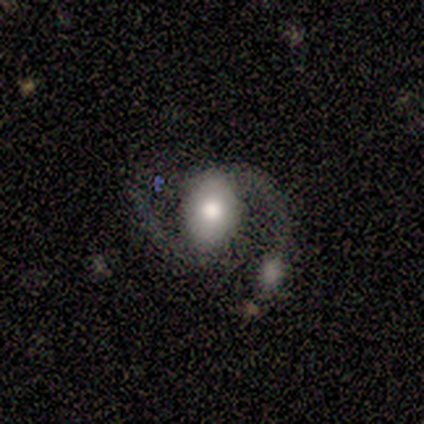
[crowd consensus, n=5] This appears to be a featured or disk galaxy (80%) with a weak bar (50%, tied with no), 2 (100%) medium (100%) spiral arms (100%) and a large central bulge (50%, tied with moderate). Merging: none (40%, tied with major disturbance).